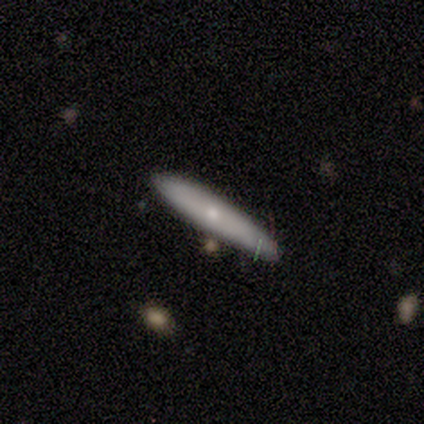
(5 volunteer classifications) A smooth galaxy with no disk features (80%) that is cigar-shaped (100%).

Vote fractions:
- Smooth or featured? smooth: 80% / featured or disk: 20% / star or artifact: 0%
- How rounded? cigar-shaped: 100% / round: 0% / in between: 0%
- Merging? none: 100% / minor disturbance: 0% / major disturbance: 0% / merger: 0%